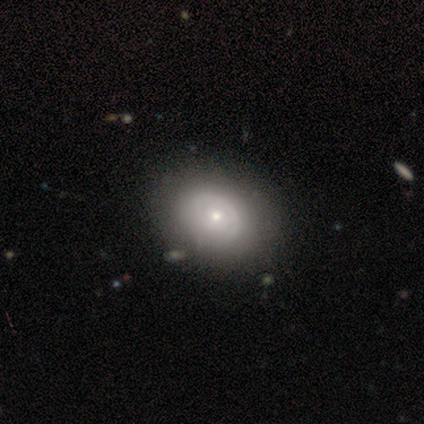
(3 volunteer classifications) Smooth or featured?
  - smooth: 67% *
  - featured or disk: 33%
  - star or artifact: 0%
How rounded?
  - round: 50% * (tied)
  - in between: 50% * (tied)
  - cigar-shaped: 0%
Merging?
  - minor disturbance: 67% *
  - none: 33%
  - major disturbance: 0%
  - merger: 0%